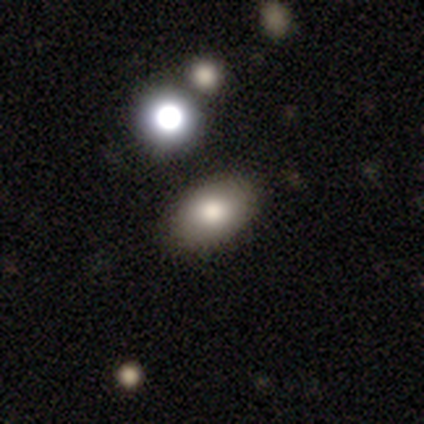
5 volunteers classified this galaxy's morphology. type=smooth (100%); roundness=in between (80%); merging=none (80%).